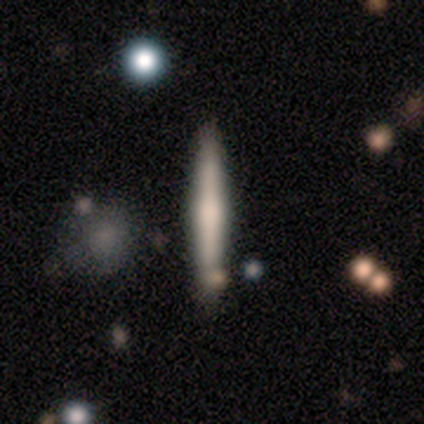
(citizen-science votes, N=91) This appears to be a smooth galaxy with no disk features (51%) that is cigar-shaped (96%). Merging: none (76%).